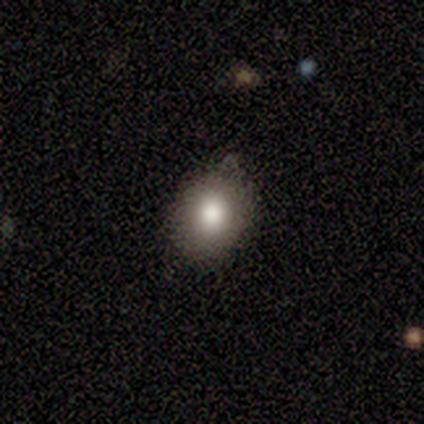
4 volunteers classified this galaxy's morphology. Smooth or featured?
  - smooth: 75% *
  - featured or disk: 25%
  - star or artifact: 0%
How rounded?
  - round: 67% *
  - in between: 33%
  - cigar-shaped: 0%
Merging?
  - none: 50% * (tied)
  - minor disturbance: 50% * (tied)
  - major disturbance: 0%
  - merger: 0%